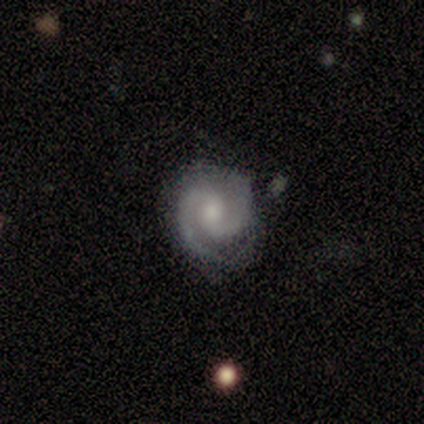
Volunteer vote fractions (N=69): Volunteers were most divided on "spiral winding": tight: 51%, medium: 46%, loose: 3%. More confident: edge-on disk — no (98%); spiral arms — yes (98%); spiral arm count — 2 (97%); smooth or featured — featured or disk (94%); merging — none (81%); bulge size — moderate (56%); bar — no (53%).